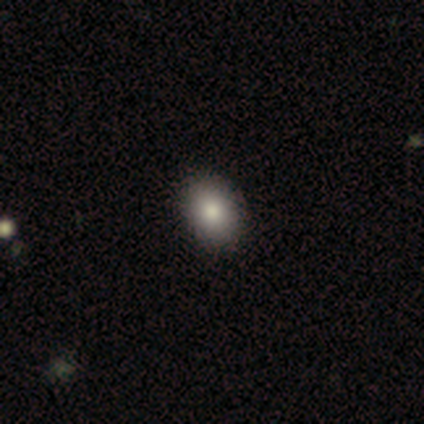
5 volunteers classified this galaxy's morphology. Overall: smooth (80%). How rounded: in between (75%). Merging: none (75%).